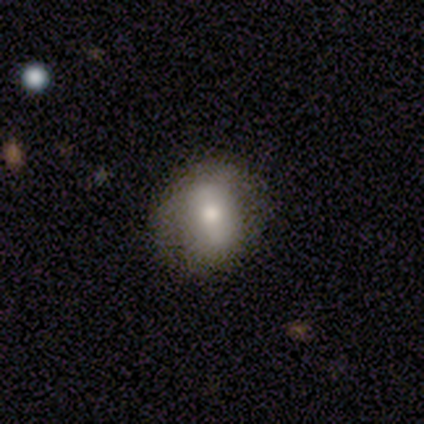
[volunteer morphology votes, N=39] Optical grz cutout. It shows a smooth galaxy with no disk features (59%) that is round (57%). Merging: none (75%).